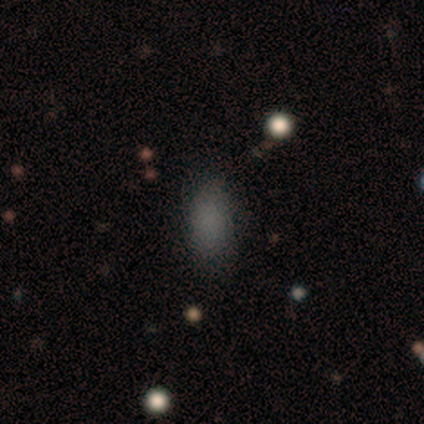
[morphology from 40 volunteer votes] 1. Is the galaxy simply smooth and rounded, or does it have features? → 92% smooth, 8% star or artifact, 0% featured or disk.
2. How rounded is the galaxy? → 95% in between, 3% round, 3% cigar-shaped.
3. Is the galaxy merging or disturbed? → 86% none, 11% minor disturbance, 3% major disturbance, 0% merger.